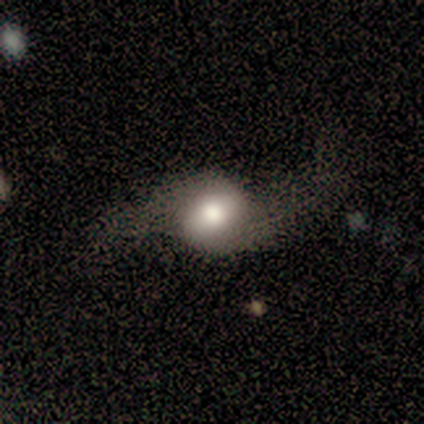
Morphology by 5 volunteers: type=featured or disk (60%); edge-on=no (100%); bar=no (67%); spiral arms=yes (100%); winding=loose (100%); arm count=2 (100%); bulge=large (33%, tied with moderate and small); merging=none (50%, tied with major disturbance).